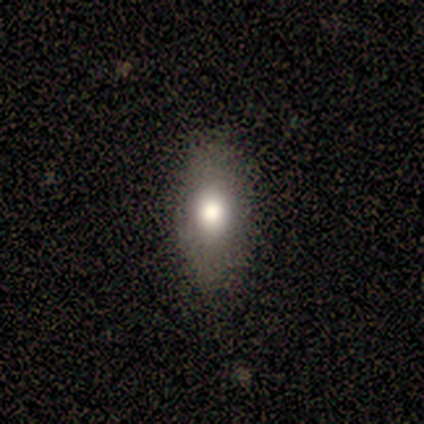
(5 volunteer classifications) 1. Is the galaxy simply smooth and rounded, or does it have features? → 100% smooth, 0% featured or disk, 0% star or artifact.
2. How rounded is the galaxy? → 100% in between, 0% round, 0% cigar-shaped.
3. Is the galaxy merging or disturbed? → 80% none, 20% major disturbance, 0% minor disturbance, 0% merger.